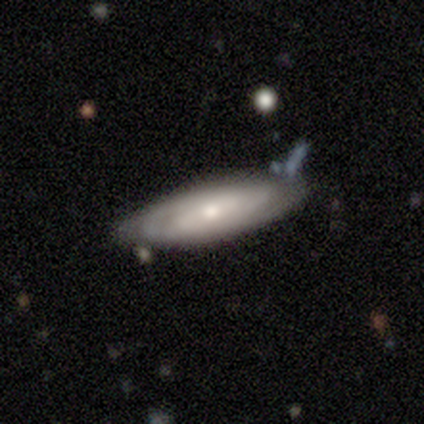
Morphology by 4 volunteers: Smooth or featured? 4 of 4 (100%) said smooth. How rounded? 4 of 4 (100%) said in between. Merging? 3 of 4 (75%) said minor disturbance.